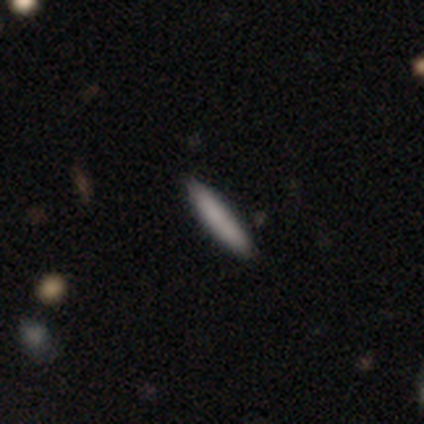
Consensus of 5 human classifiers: A smooth galaxy with no disk features (60%) that is cigar-shaped (100%). Merging: none (100%).